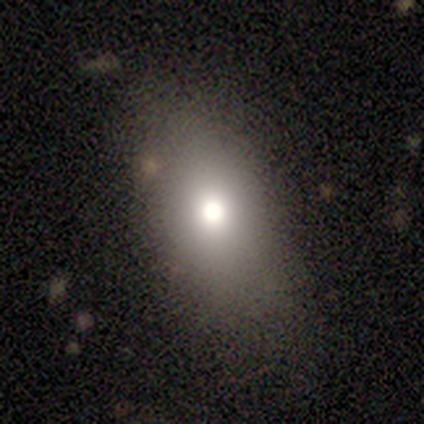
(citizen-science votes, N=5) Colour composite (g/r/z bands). It shows a smooth galaxy with no disk features (80%) that is round (50%, tied with in between). Merging: none (50%).